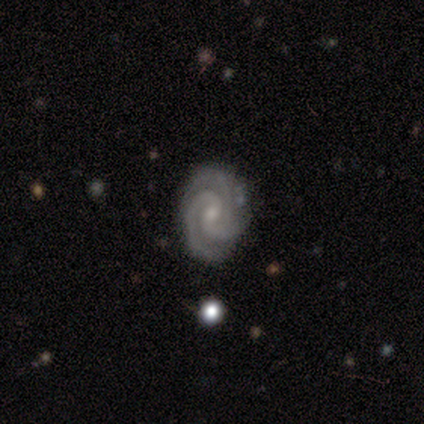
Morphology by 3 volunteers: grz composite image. It shows a featured or disk galaxy (100%) with a strong bar (33%, tied with weak and no), 3 (100%) medium (67%) spiral arms (100%) and a moderate central bulge (67%). Merging: minor disturbance (67%).